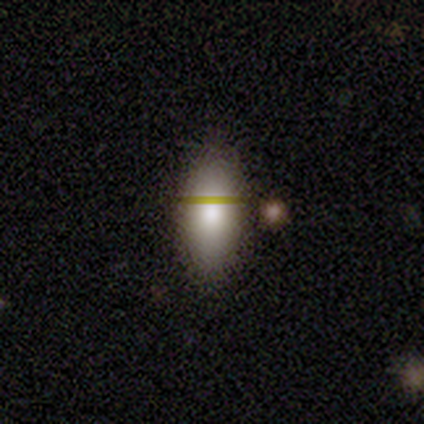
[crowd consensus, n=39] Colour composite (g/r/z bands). It shows a smooth galaxy with no disk features (77%) that is in between round and cigar-shaped (93%). Merging: none (74%).